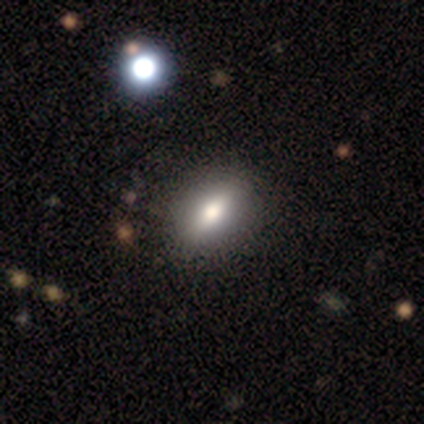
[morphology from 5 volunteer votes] This is clearly a smooth galaxy (80%). How rounded: clearly in between (100%). Merging: clearly none (80%).